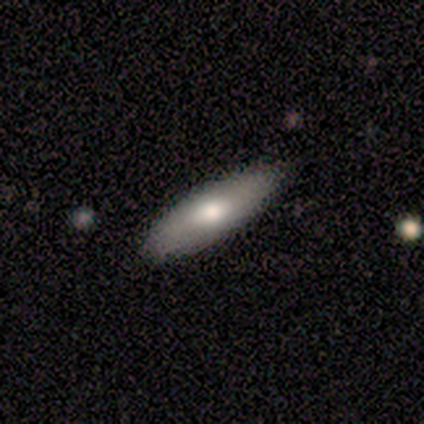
smooth 100%, featured or disk 0%, star or artifact 0%. Down the decision tree: how rounded — in between (75%); merging — none (75%).